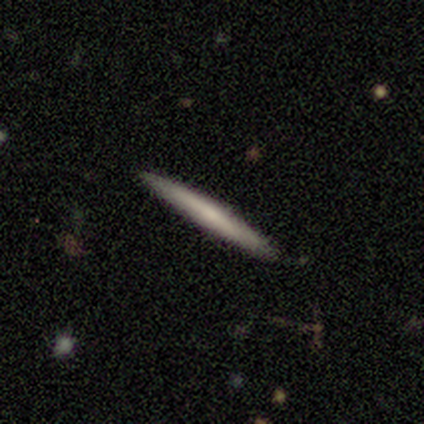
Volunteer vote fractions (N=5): smooth 60%, featured or disk 20%, star or artifact 20%. Down the decision tree: how rounded — cigar-shaped (100%); merging — none (100%).